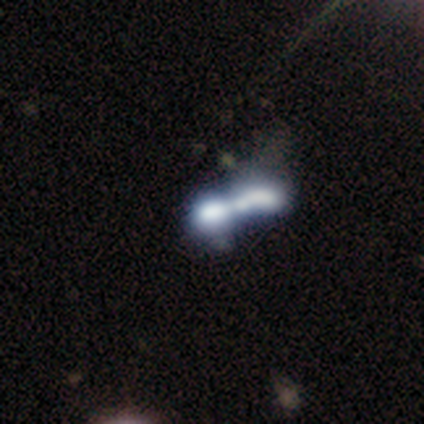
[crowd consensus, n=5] A smooth galaxy with no disk features (60%) that is cigar-shaped (67%).

Vote fractions:
- Smooth or featured? smooth: 60% / featured or disk: 20% / star or artifact: 20%
- How rounded? cigar-shaped: 67% / in between: 33% / round: 0%
- Merging? merger: 100% / none: 0% / minor disturbance: 0% / major disturbance: 0%